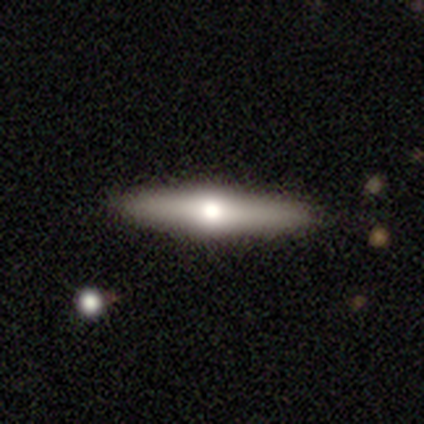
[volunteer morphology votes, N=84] A featured or disk galaxy (61%) viewed edge-on (90%) with a rounded central bulge (96%). Merging: none (88%).